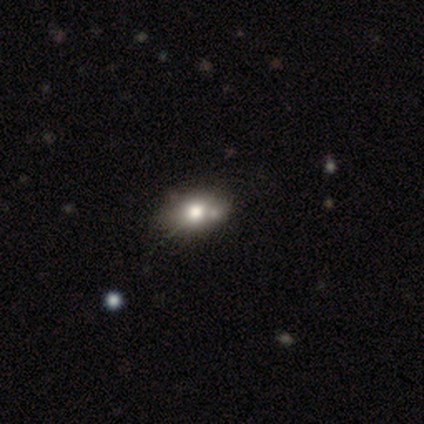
smooth-or-featured: smooth: 50% | star or artifact: 33% | featured or disk: 17%
  how-rounded: in between: 67% | round: 33% | cigar-shaped: 0%
  merging: none: 100% | minor disturbance: 0% | major disturbance: 0% | merger: 0%